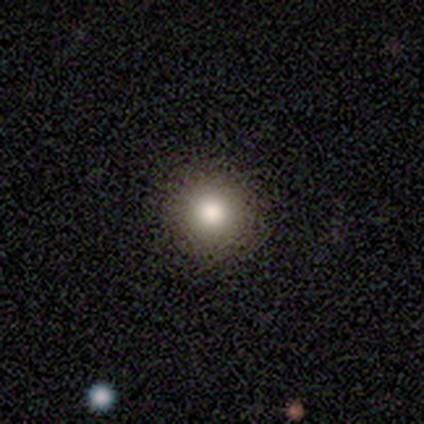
smooth_or_featured: smooth (p=0.78) [alt: star or artifact p=0.18]
how_rounded: round (p=1.00)
merging: none (p=0.93) [alt: minor disturbance p=0.05]